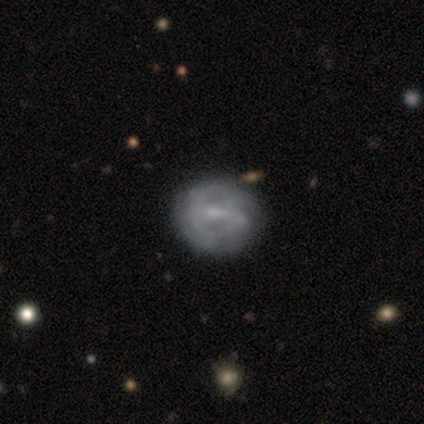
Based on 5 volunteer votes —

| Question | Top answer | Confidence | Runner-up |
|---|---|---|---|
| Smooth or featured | featured or disk | 100% | — |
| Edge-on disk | no | 100% | — |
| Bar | weak | 80% | strong (20%) |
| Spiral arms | yes | 80% | no (20%) |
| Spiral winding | tight | 50% | medium (25%) |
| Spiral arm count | can't tell | 75% | 2 (25%) |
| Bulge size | small | 60% | moderate (40%) |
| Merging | minor disturbance | 60% | none (40%) |